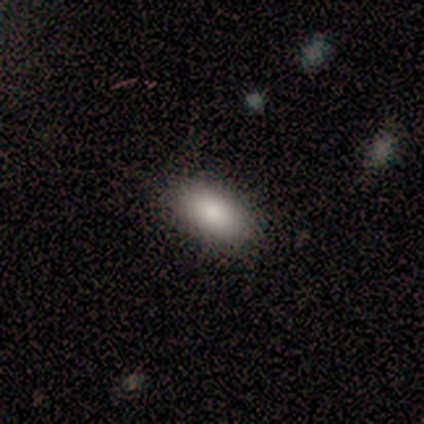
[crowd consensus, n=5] Volunteers were most divided on "smooth or featured": smooth: 80%, featured or disk: 20%, star or artifact: 0%. More confident: how rounded — in between (100%); merging — none (100%).